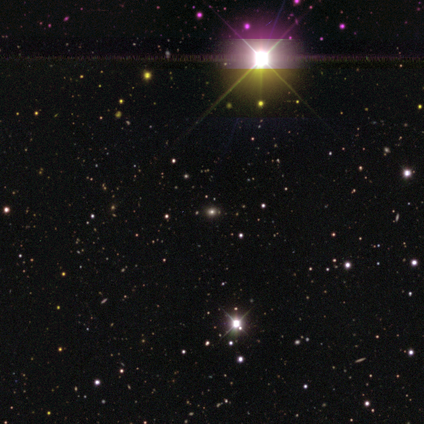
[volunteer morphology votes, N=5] Volunteers were most divided on "smooth or featured": star or artifact: 80%, featured or disk: 20%, smooth: 0%.